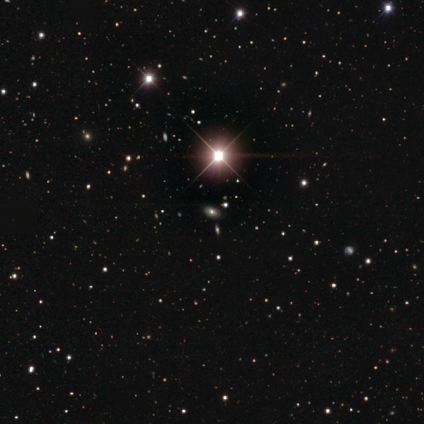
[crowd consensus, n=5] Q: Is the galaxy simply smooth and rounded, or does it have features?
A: star or artifact — 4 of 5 (80%).